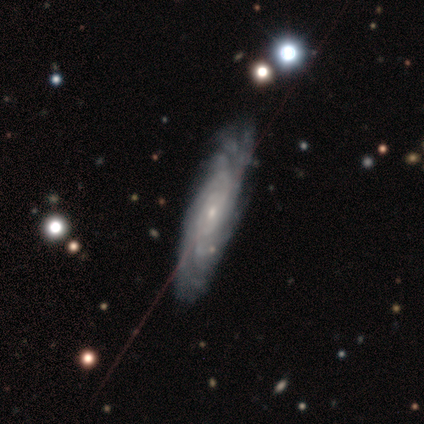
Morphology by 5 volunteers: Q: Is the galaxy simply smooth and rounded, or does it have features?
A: featured or disk — 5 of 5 (100%).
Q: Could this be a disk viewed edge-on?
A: no — 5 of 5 (100%).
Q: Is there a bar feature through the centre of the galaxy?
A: no — 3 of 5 (60%).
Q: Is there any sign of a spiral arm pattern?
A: yes — 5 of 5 (100%).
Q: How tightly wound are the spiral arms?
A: tight — 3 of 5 (60%).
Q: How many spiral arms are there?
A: can't tell — 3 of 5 (60%).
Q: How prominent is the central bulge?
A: small — 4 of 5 (80%).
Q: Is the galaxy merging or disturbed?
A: none — 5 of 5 (100%).